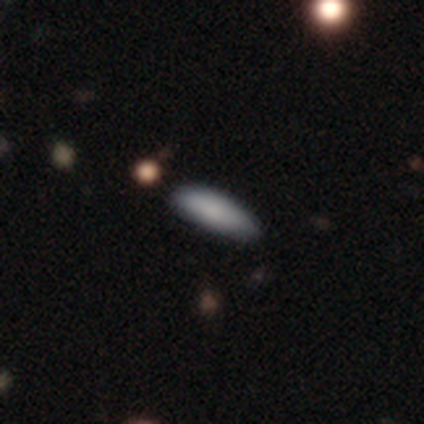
Overall: smooth (100%). How rounded: cigar-shaped (60%; in between 40%). Merging: none (100%).